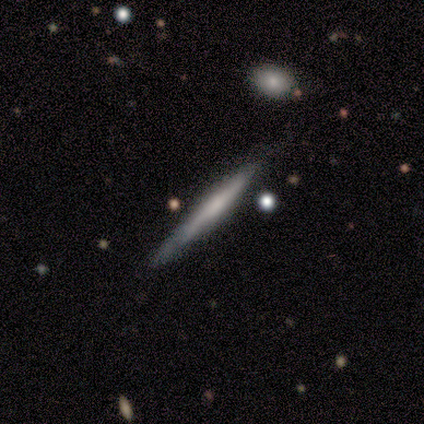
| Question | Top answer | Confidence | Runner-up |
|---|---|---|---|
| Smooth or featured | featured or disk | 50% | smooth (33%) |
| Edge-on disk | yes | 100% | — |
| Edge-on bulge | none | 67% | boxy (33%) |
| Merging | none | 80% | minor disturbance (20%) |